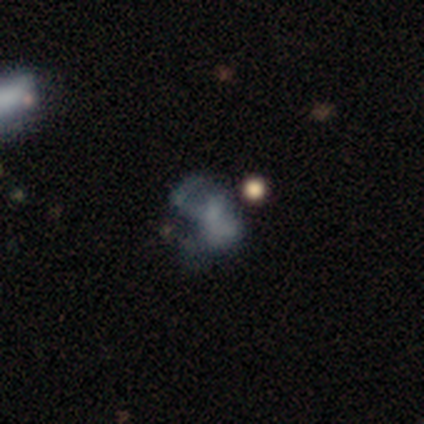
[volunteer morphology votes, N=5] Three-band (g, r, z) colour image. It shows a smooth galaxy with no disk features (60%) that is in between round and cigar-shaped (100%). Merging: none (50%).